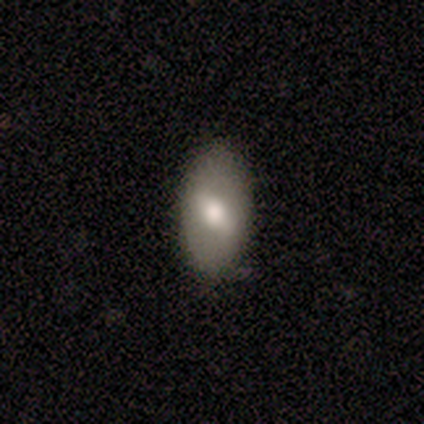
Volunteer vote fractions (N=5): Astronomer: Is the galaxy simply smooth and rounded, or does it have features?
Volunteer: smooth — 60% (runner-up: featured or disk, 40%).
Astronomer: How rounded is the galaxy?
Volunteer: in between — 100%.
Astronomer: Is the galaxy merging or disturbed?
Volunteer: none — 100%.